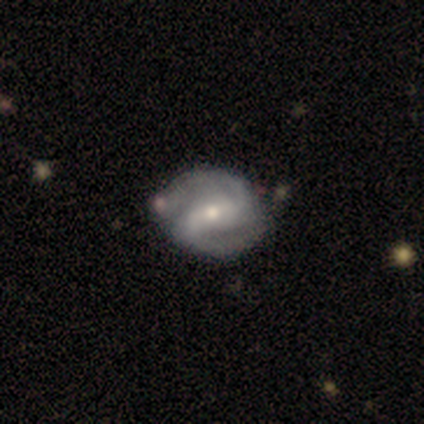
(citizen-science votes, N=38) Smooth or featured? featured or disk (92%)
Edge-on disk? no (97%)
Bar? weak (41%)
Spiral arms? yes (91%)
Spiral winding? medium (71%)
Spiral arm count? 2 (94%)
Bulge size? moderate (56%)
Merging? none (46%)